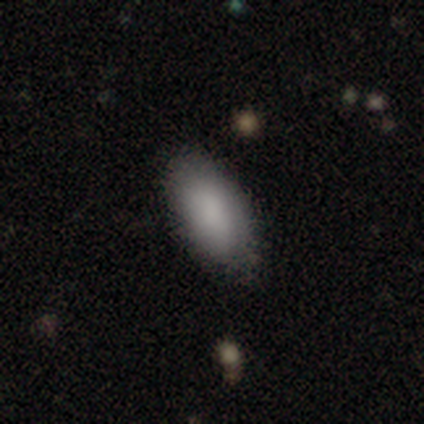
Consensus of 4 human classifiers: smooth_or_featured: smooth (p=0.75) [alt: featured or disk p=0.25]
how_rounded: in between (p=0.67) [alt: cigar-shaped p=0.33]
merging: none (p=0.75) [alt: minor disturbance p=0.25]